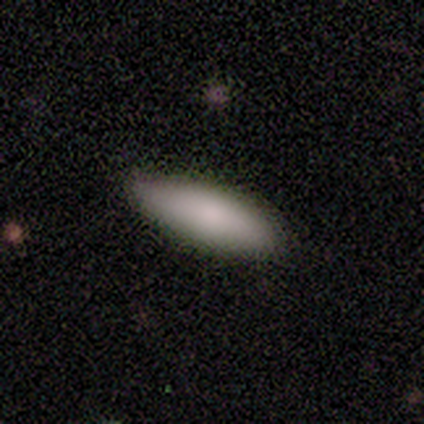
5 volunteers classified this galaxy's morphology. Overall: smooth (80%). How rounded: cigar-shaped (100%). Merging: none (100%).